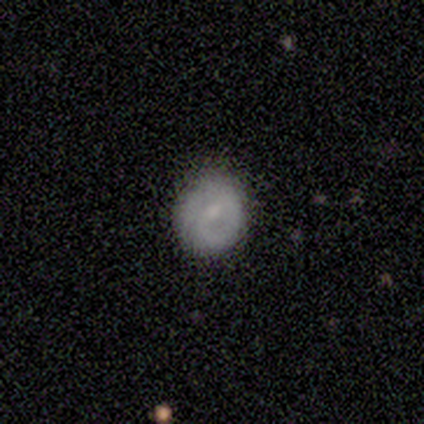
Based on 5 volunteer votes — Smooth or featured: smooth — 60% (featured or disk — 40%)
How rounded: round — 67% (in between — 33%)
Merging: none — 60% (minor disturbance — 20%)